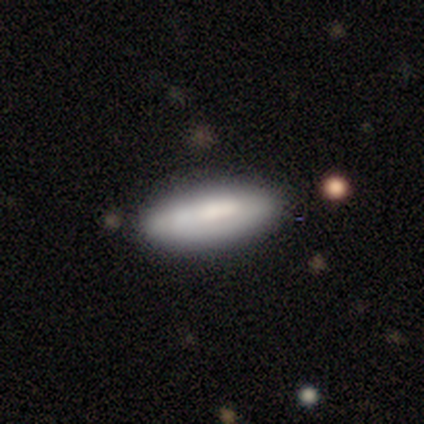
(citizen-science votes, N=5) This is clearly a smooth galaxy (100%). How rounded: likely in between (60%). Merging: likely none (60%).